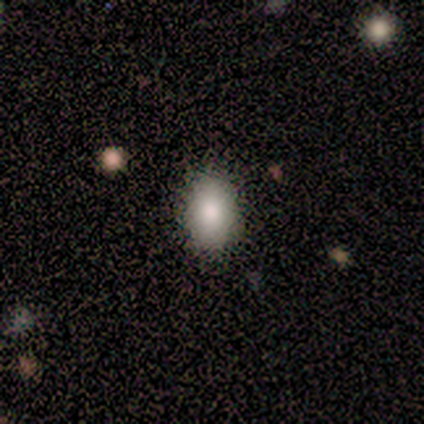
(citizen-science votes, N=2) Q: Smooth or featured?
A: smooth (100%)
Q: How rounded?
A: round (50%); tied with: in between (50%)
Q: Merging?
A: none (50%); tied with: minor disturbance (50%)